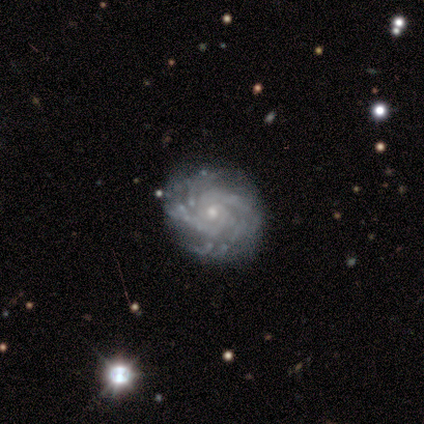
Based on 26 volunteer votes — featured or disk 81%, star or artifact 15%, smooth 4%. Down the decision tree: edge-on disk — no (100%); bar — no (86%); spiral arms — yes (95%); spiral arm count — more than 4 (30%); spiral winding — tight (95%); bulge size — small (57%); merging — none (82%).